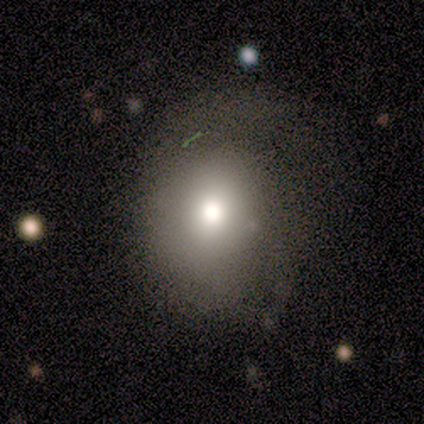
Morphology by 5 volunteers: Smooth or featured? featured or disk (60%)
Edge-on disk? no (100%)
Bar? no (67%)
Spiral arms? yes (67%)
Spiral winding? medium (100%)
Spiral arm count? 1 (50%, tied with 2)
Bulge size? moderate (67%)
Merging? none (60%)